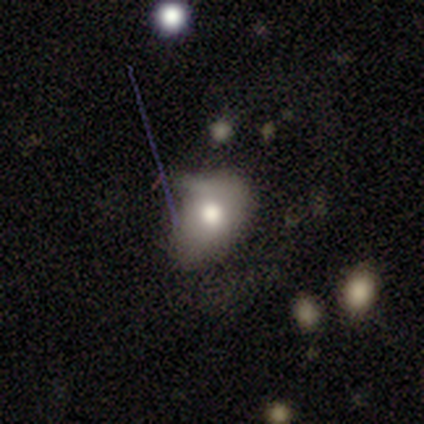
This is clearly a smooth galaxy (80%). How rounded: likely round (75%). Merging: likely minor disturbance (75%).